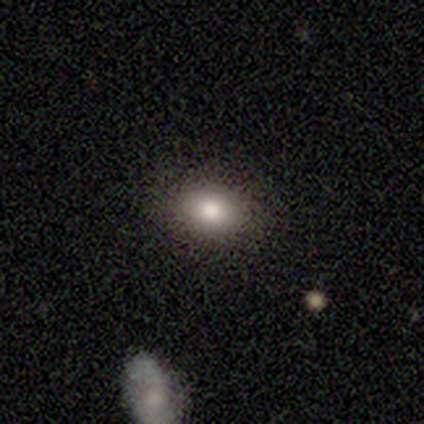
Consensus on every question: smooth or featured — smooth (100%); how rounded — in between (100%); merging — none (100%).